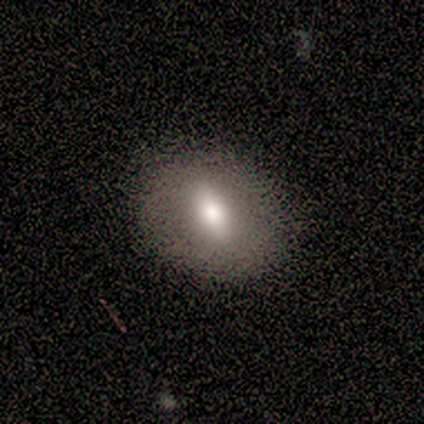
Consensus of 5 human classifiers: smooth_or_featured: smooth (p=0.60) [alt: featured or disk p=0.20]
how_rounded: in between (p=0.67) [alt: round p=0.33]
merging: none (p=0.75) [alt: minor disturbance p=0.25]